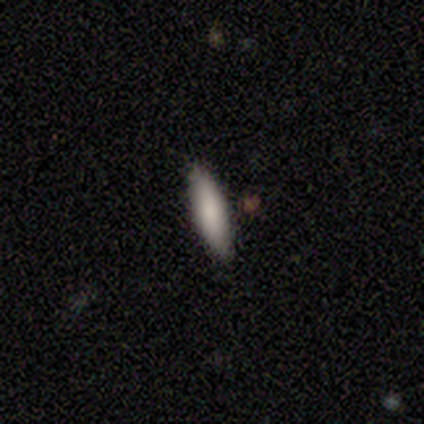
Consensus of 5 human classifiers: Smooth or featured? 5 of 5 (100%) said smooth. How rounded? 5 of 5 (100%) said cigar-shaped. Merging? 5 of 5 (100%) said none.